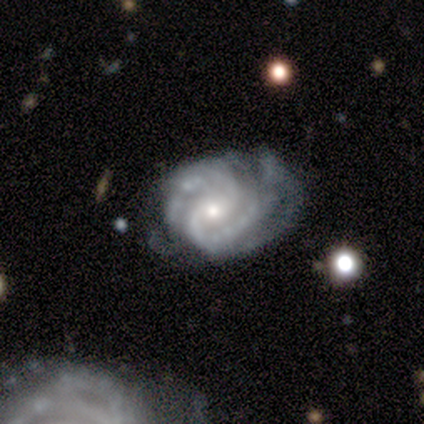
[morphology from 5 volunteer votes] Smooth or featured? 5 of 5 (100%) said featured or disk. Edge-on disk? 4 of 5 (80%) said no. Bar? 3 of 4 (75%) said no. Spiral arms? 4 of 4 (100%) said yes. Spiral winding? 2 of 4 (50%, tied with medium) said tight. Spiral arm count? 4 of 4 (100%) said 2. Bulge size? 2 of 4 (50%, tied with small) said moderate. Merging? 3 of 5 (60%) said minor disturbance.